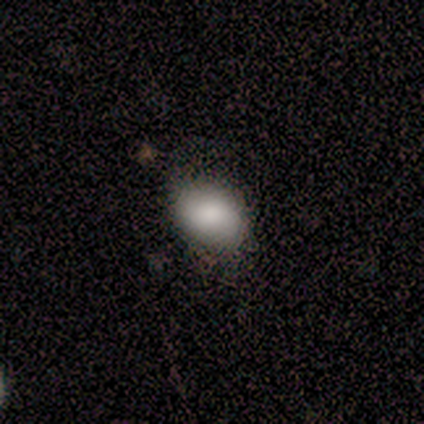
This appears to be a smooth galaxy with no disk features (93%) that is in between round and cigar-shaped (86%). Merging: minor disturbance (50%).